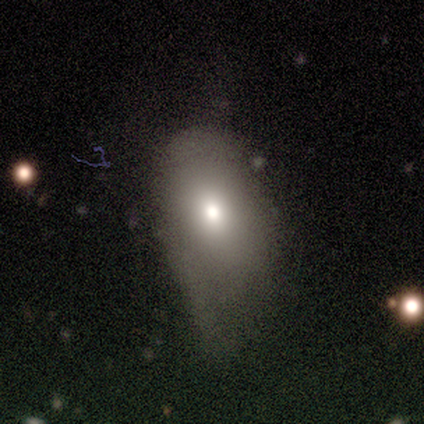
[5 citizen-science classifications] Smooth or featured: smooth — 80% (star or artifact — 20%)
How rounded: in between — 75% (round — 25%)
Merging: minor disturbance — 50% (none — 25%)